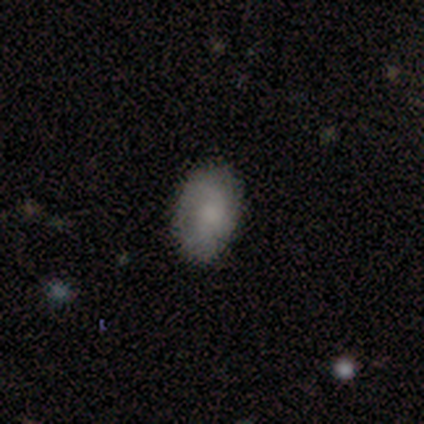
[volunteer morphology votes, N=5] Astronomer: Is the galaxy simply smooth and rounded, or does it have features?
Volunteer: smooth — 40%, tied with featured or disk at 40%.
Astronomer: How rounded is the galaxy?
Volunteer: in between — 100%.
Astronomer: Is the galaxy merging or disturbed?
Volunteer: none — 50%, tied with minor disturbance at 50%.